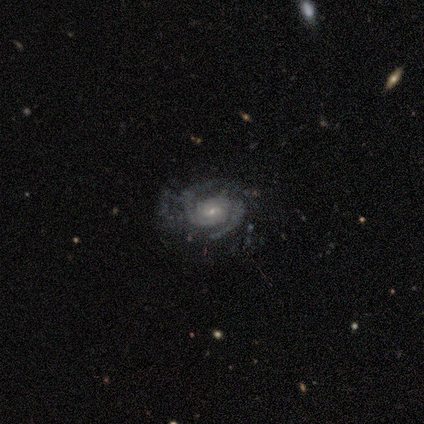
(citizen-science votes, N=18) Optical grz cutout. It shows a featured or disk galaxy (94%) with no bar (82%), 2 (76%) medium (53%) spiral arms (100%) and a small central bulge (71%). Merging: none (67%).